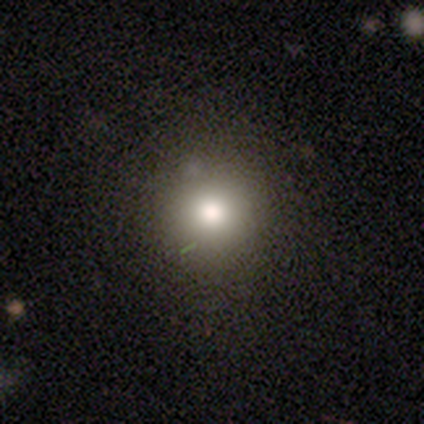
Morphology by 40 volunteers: type=smooth (78%); roundness=round (94%); merging=none (69%).